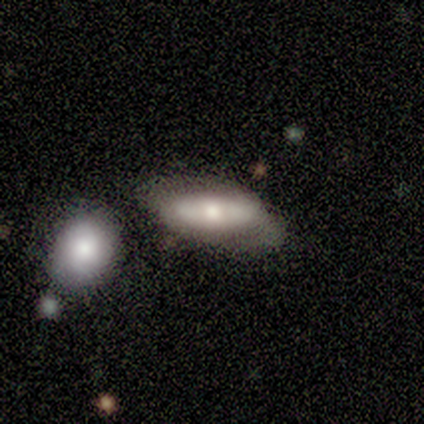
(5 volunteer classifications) Morphology: type=smooth (80%); roundness=in between (100%); merging=none (50%, tied with merger).